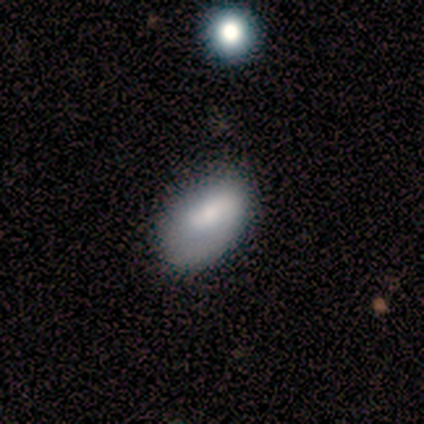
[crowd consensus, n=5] Q: Smooth or featured?
A: smooth (60%); runner-up: featured or disk (20%)
Q: How rounded?
A: in between (100%)
Q: Merging?
A: none (50%); tied with: minor disturbance (50%)